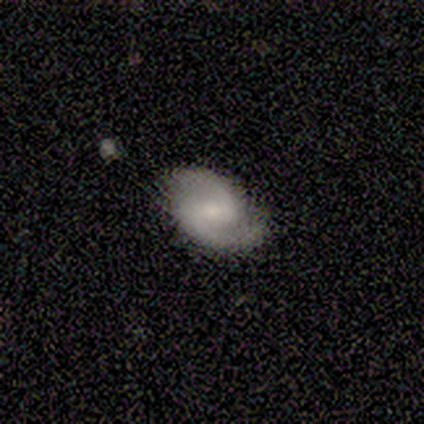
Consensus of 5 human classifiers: Smooth or featured?
  - featured or disk: 80% *
  - smooth: 20%
  - star or artifact: 0%
Edge-on disk?
  - no: 100% *
  - yes: 0%
Bar?
  - weak: 75% *
  - no: 25%
  - strong: 0%
Spiral arms?
  - yes: 100% *
  - no: 0%
Spiral winding?
  - medium: 75% *
  - loose: 25%
  - tight: 0%
Spiral arm count?
  - 2: 100% *
  - 1: 0%
  - 3: 0%
  - 4: 0%
  - more than 4: 0%
  - can't tell: 0%
Bulge size?
  - moderate: 75% *
  - small: 25%
  - dominant: 0%
  - large: 0%
  - none: 0%
Merging?
  - none: 60% *
  - minor disturbance: 20%
  - merger: 20%
  - major disturbance: 0%